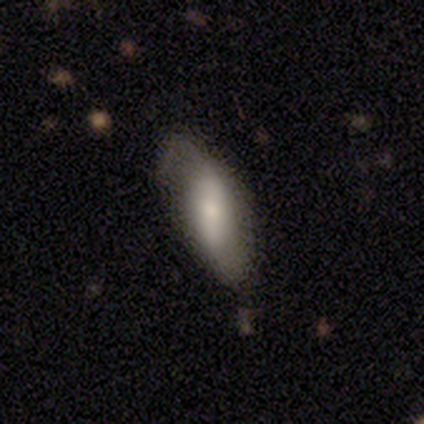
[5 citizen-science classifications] smooth-or-featured: smooth: 60% | featured or disk: 40% | star or artifact: 0%
  how-rounded: cigar-shaped: 67% | in between: 33% | round: 0%
  merging: none: 60% | minor disturbance: 40% | major disturbance: 0% | merger: 0%